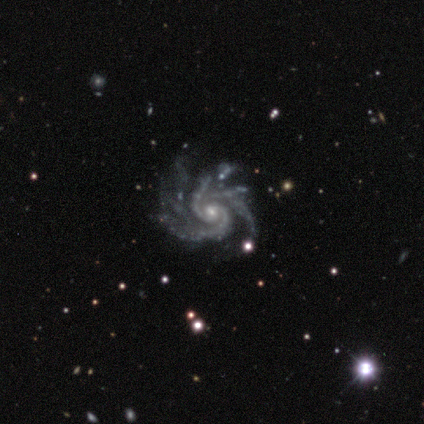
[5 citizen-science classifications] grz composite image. It shows a featured or disk galaxy (100%) with no bar (60%), 3 (60%) medium (80%) spiral arms (100%) and a small central bulge (80%). Merging: none (60%).